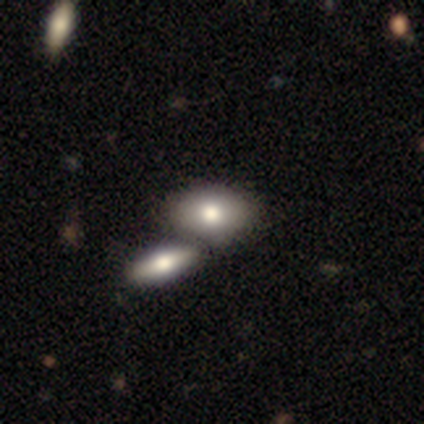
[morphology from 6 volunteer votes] smooth 83%, featured or disk 17%, star or artifact 0%. Down the decision tree: how rounded — in between (100%); merging — merger (50%).